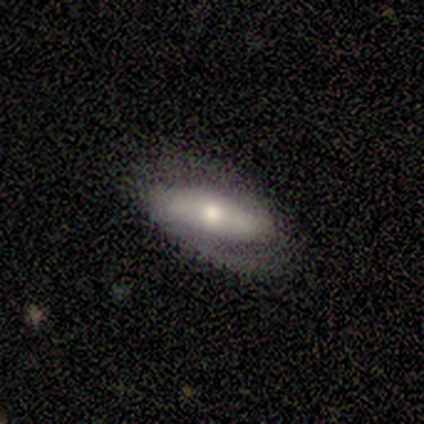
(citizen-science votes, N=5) Overall: smooth (40%, tied with featured or disk). How rounded: cigar-shaped (100%). Merging: none (75%).